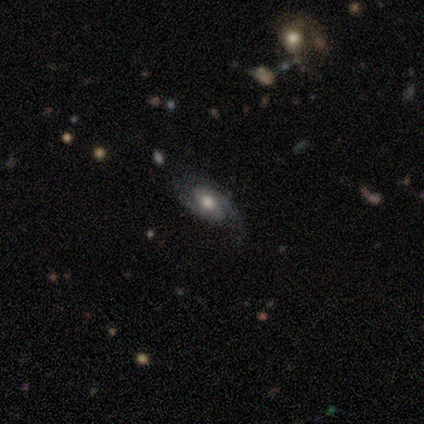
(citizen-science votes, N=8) Morphology: type=featured or disk (75%); edge-on=no (83%); bar=weak (40%, tied with no); spiral arms=yes (100%); winding=tight (40%, tied with medium); arm count=2 (100%); bulge=moderate (60%); merging=none (88%).